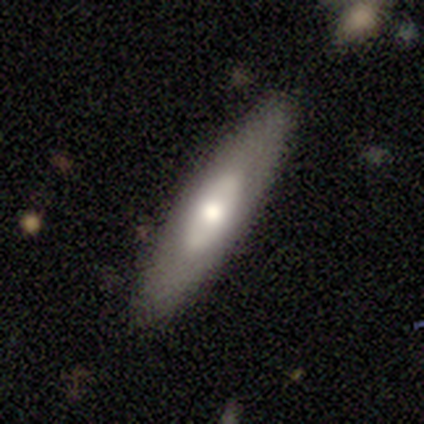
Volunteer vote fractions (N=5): Q: Smooth or featured?
A: smooth (60%); runner-up: featured or disk (20%)
Q: How rounded?
A: in between (67%); runner-up: cigar-shaped (33%)
Q: Merging?
A: none (100%)